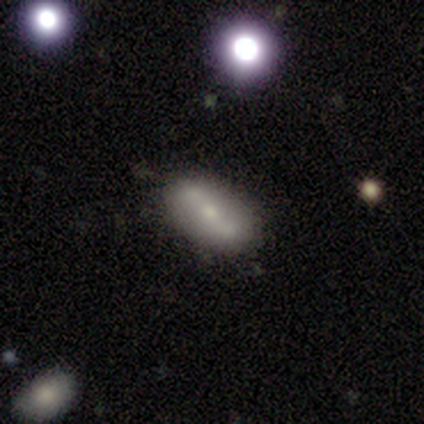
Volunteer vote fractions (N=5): Volunteers were most divided on "smooth or featured" (2-way tie): smooth: 40%, featured or disk: 40%, star or artifact: 20%; "merging" (2-way tie): none: 50%, minor disturbance: 50%, major disturbance: 0%, merger: 0%. More confident: how rounded — in between (100%).